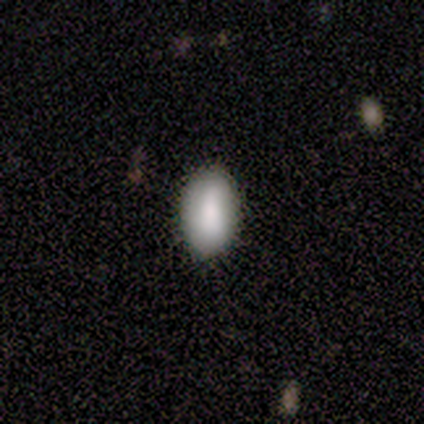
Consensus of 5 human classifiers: smooth_or_featured: smooth (p=1.00)
how_rounded: in between (p=1.00)
merging: none (p=1.00)